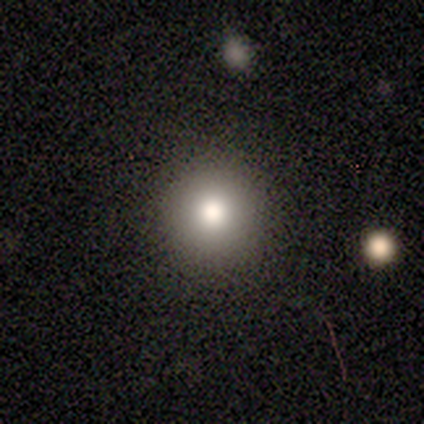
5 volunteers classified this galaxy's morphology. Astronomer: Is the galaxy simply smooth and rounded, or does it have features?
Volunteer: smooth — 80%.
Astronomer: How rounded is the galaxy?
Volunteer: round — 100%.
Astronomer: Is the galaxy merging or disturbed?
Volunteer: none — 100%.